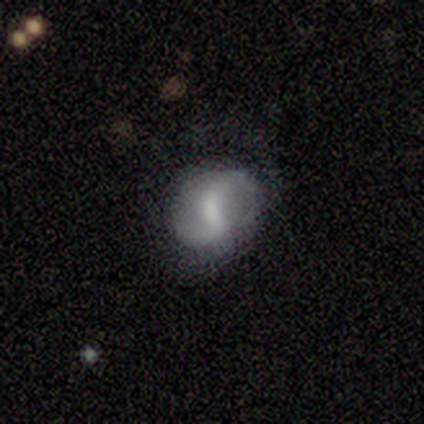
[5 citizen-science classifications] smooth_or_featured: featured or disk (p=0.80) [alt: smooth p=0.20]
disk_edge_on: no (p=1.00)
bar: weak (p=0.75) [alt: strong p=0.25]
has_spiral_arms: yes (p=1.00)
spiral_winding: medium (p=0.50) [tied with: loose p=0.50]
spiral_arm_count: 2 (p=1.00)
bulge_size: small (p=0.75) [alt: moderate p=0.25]
merging: none (p=0.40) [tied with: minor disturbance p=0.40]